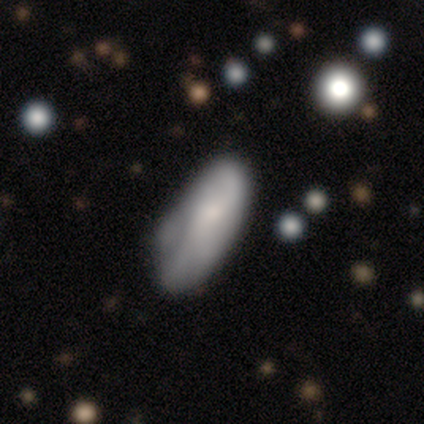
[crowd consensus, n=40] Smooth or featured?
  - smooth: 65% *
  - featured or disk: 22%
  - star or artifact: 12%
How rounded?
  - in between: 69% *
  - cigar-shaped: 31%
  - round: 0%
Merging?
  - minor disturbance: 46% *
  - none: 40%
  - major disturbance: 11%
  - merger: 3%